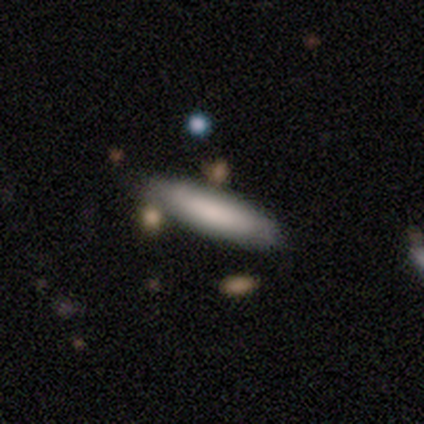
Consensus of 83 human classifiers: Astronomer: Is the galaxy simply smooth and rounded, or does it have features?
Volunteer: smooth — 84%.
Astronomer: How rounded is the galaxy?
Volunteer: cigar-shaped — 71%.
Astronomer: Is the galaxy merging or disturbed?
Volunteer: none — 82%.